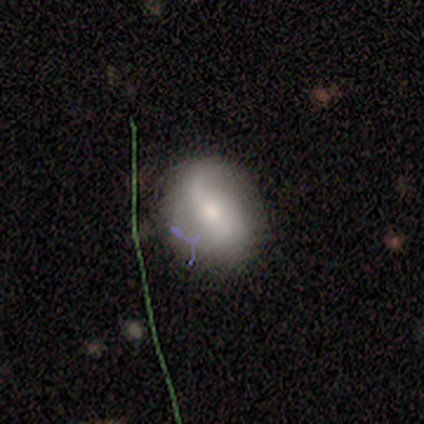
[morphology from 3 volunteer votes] This appears to be a featured or disk galaxy (100%) with no bar (100%), 2 (67%) loose (100%) spiral arms (100%) and a moderate central bulge (67%). Merging: none (100%).